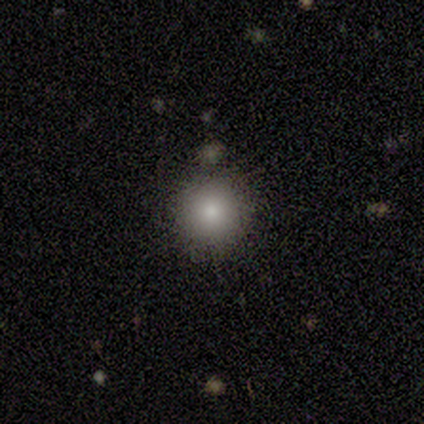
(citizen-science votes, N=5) This appears to be a smooth galaxy with no disk features (80%) that is round (100%). Merging: none (75%).